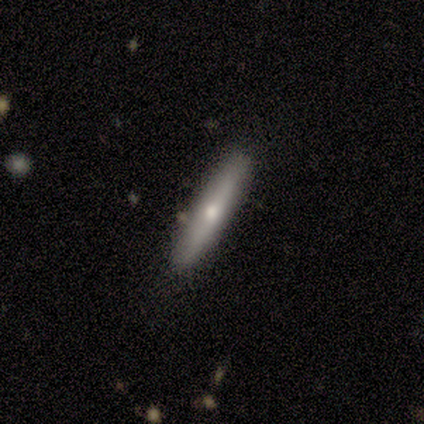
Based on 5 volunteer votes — A featured or disk galaxy (80%) viewed edge-on (50%, tied with no) with a rounded central bulge (100%). Merging: none (80%).